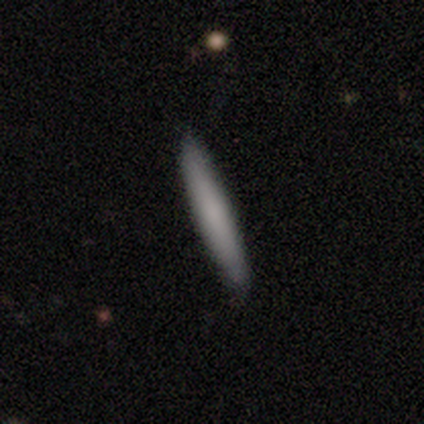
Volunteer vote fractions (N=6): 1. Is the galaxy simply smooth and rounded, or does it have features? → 83% smooth, 17% featured or disk, 0% star or artifact.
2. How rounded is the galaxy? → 100% cigar-shaped, 0% round, 0% in between.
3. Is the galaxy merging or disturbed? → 83% none, 17% minor disturbance, 0% major disturbance, 0% merger.